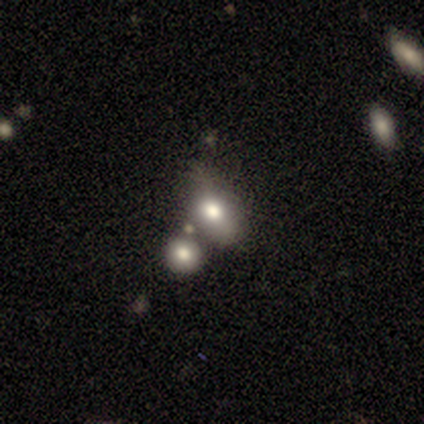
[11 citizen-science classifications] Q: Smooth or featured?
A: smooth (100%)
Q: How rounded?
A: in between (100%)
Q: Merging?
A: none (64%); runner-up: merger (27%)